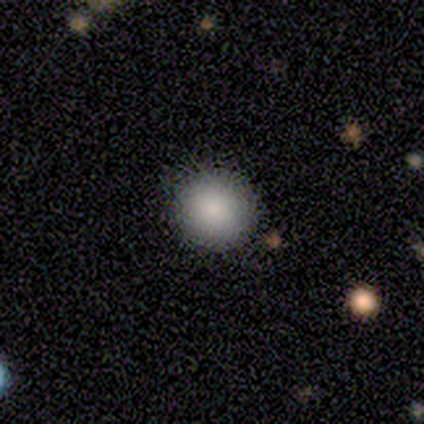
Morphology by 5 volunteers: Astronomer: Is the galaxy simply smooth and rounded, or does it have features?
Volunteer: smooth — 100%.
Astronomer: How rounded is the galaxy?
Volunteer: round — 100%.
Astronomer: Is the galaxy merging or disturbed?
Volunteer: none — 80%.